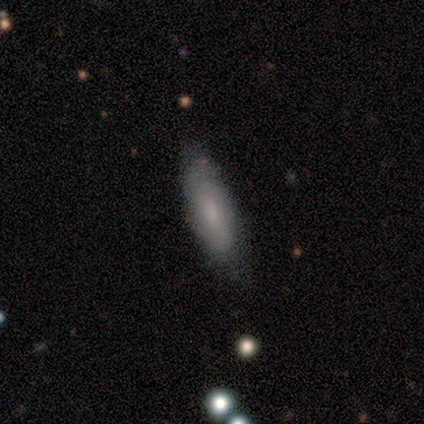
This is possibly a smooth galaxy (55%). How rounded: likely in between (67%). Merging: clearly none (91%).